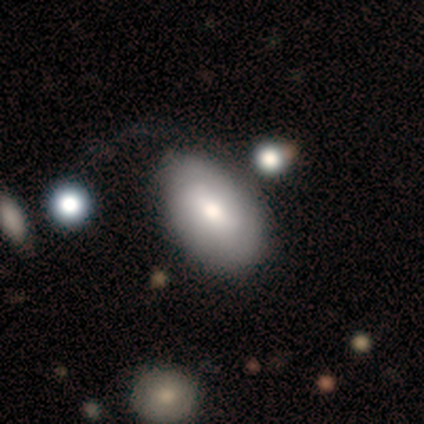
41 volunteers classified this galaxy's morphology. smooth_or_featured: smooth (p=0.66) [alt: featured or disk p=0.27]
how_rounded: in between (p=0.96) [alt: cigar-shaped p=0.04]
merging: none (p=0.55) [alt: major disturbance p=0.29]